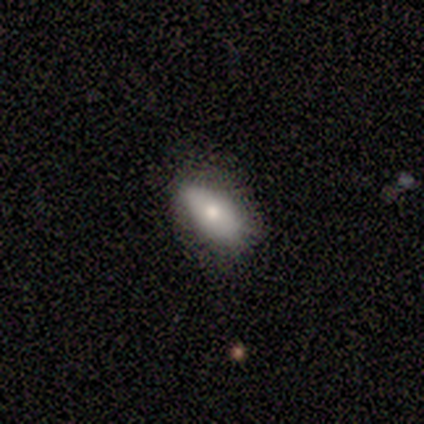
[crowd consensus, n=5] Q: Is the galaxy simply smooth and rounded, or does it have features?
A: smooth — 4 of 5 (80%).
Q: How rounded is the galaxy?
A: in between — 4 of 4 (100%).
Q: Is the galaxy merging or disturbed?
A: none — 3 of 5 (60%).